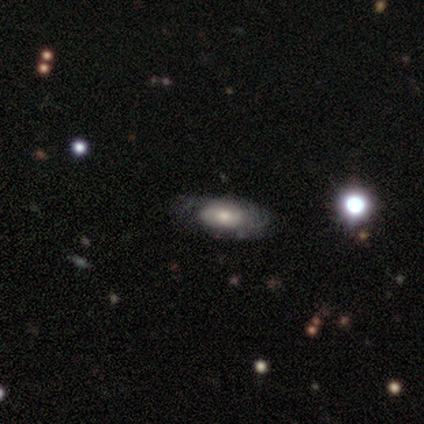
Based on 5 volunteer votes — Smooth or featured: smooth — 80% (featured or disk — 20%)
How rounded: in between — 100%
Merging: none — 80% (minor disturbance — 20%)